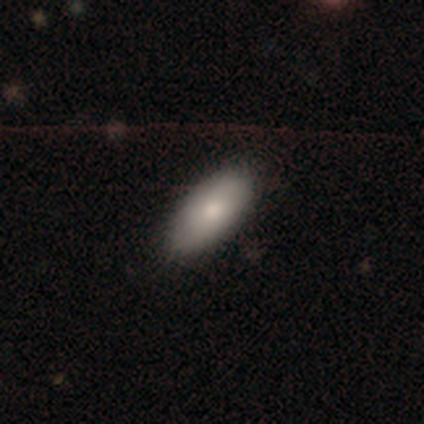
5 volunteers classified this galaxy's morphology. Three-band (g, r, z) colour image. It shows a smooth galaxy with no disk features (100%) that is in between round and cigar-shaped (100%). Merging: none (100%).